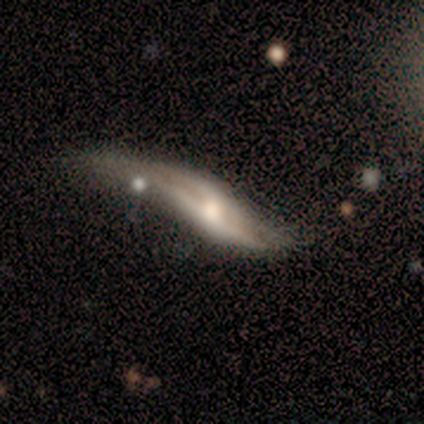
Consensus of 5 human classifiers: Smooth or featured: featured or disk — 80% (smooth — 20%)
Edge-on disk: no — 75% (yes — 25%)
Bar: no — 67% (strong — 33%)
Spiral arms: no — 100%
Bulge size: moderate — 67% (small — 33%)
Merging: major disturbance — 40% (none — 20%)